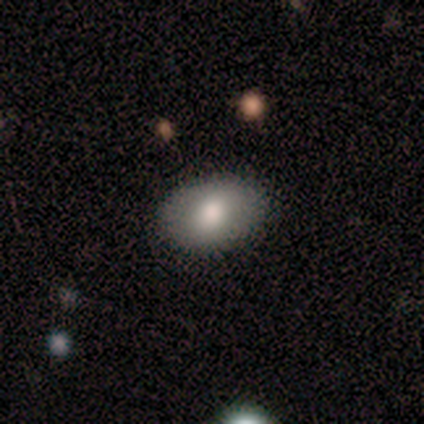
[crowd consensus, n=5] Smooth or featured: featured or disk — 60% (smooth — 40%)
Edge-on disk: no — 100%
Bar: no — 67% (weak — 33%)
Spiral arms: no — 67% (yes — 33%)
Bulge size: moderate — 67% (large — 33%)
Merging: none — 100%